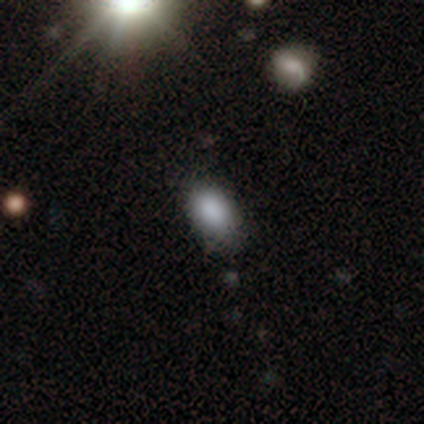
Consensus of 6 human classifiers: Smooth or featured: smooth — 100%
How rounded: in between — 100%
Merging: none — 67% (minor disturbance — 33%)